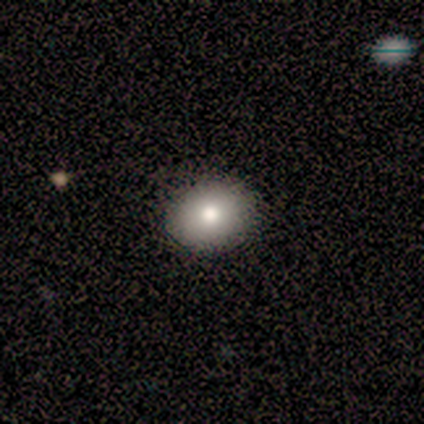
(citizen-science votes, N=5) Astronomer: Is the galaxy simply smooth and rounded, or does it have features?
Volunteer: smooth — 60%.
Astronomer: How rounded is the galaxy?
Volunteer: round — 67%.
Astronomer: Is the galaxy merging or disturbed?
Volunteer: none — 100%.